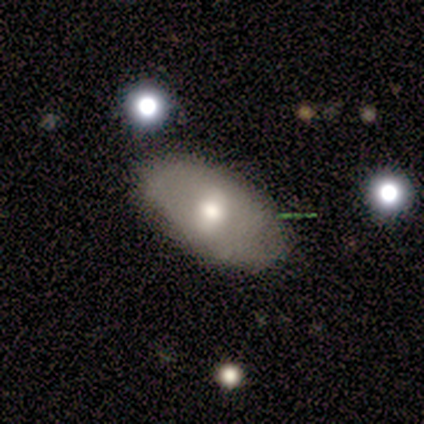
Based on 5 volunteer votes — smooth_or_featured: smooth (p=0.80) [alt: featured or disk p=0.20]
how_rounded: round (p=0.50) [tied with: in between p=0.50]
merging: none (p=0.80) [alt: major disturbance p=0.20]